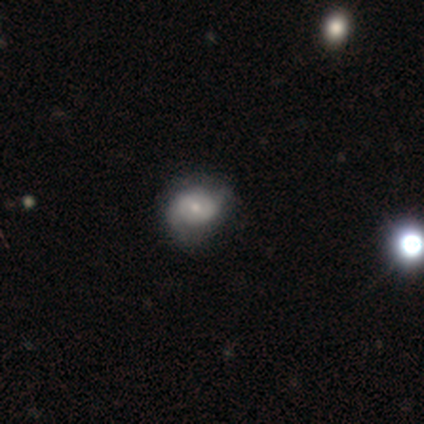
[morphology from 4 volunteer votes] Smooth or featured?
  - featured or disk: 75% *
  - smooth: 25%
  - star or artifact: 0%
Edge-on disk?
  - no: 100% *
  - yes: 0%
Bar?
  - weak: 67% *
  - no: 33%
  - strong: 0%
Spiral arms?
  - yes: 100% *
  - no: 0%
Spiral winding?
  - tight: 33% * (tied)
  - medium: 33% * (tied)
  - loose: 33% * (tied)
Spiral arm count?
  - 2: 67% *
  - 1: 33%
  - 3: 0%
  - 4: 0%
  - more than 4: 0%
  - can't tell: 0%
Bulge size?
  - small: 67% *
  - moderate: 33%
  - dominant: 0%
  - large: 0%
  - none: 0%
Merging?
  - none: 50% * (tied)
  - minor disturbance: 50% * (tied)
  - major disturbance: 0%
  - merger: 0%